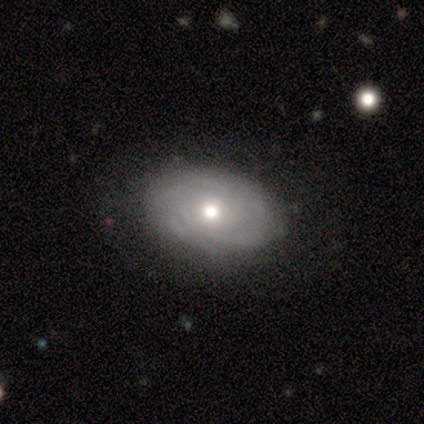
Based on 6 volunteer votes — Morphology: type=featured or disk (100%); edge-on=no (100%); bar=no (100%); spiral arms=yes (100%); winding=tight (83%); arm count=can't tell (50%); bulge=moderate (100%); merging=none (83%).